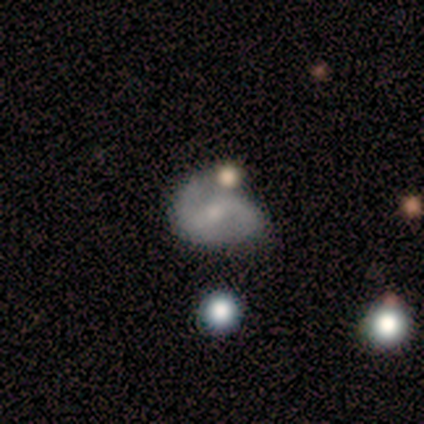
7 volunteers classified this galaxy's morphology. smooth_or_featured: featured or disk (p=0.71) [alt: smooth p=0.29]
disk_edge_on: no (p=1.00)
bar: weak (p=0.80) [alt: strong p=0.20]
has_spiral_arms: yes (p=1.00)
spiral_winding: medium (p=0.60) [alt: loose p=0.40]
spiral_arm_count: 2 (p=0.80) [alt: can't tell p=0.20]
bulge_size: small (p=0.80) [alt: moderate p=0.20]
merging: none (p=0.86) [alt: minor disturbance p=0.14]